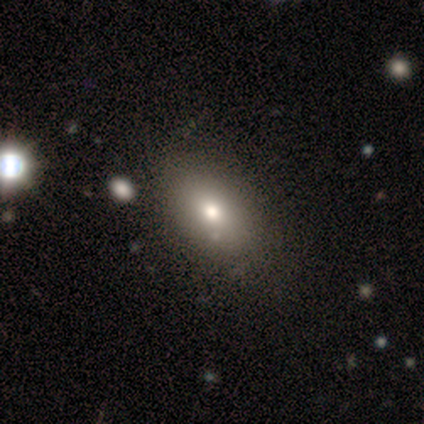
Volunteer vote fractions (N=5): This appears to be a smooth galaxy with no disk features (60%) that is in between round and cigar-shaped (100%). Merging: none (75%).